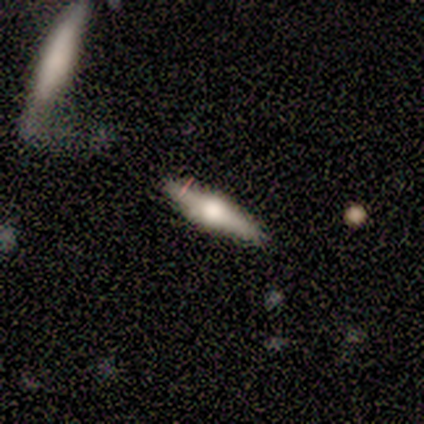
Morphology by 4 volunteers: smooth-or-featured: smooth: 50% (tied) | featured or disk: 50% (tied) | star or artifact: 0%
  how-rounded: cigar-shaped: 100% | round: 0% | in between: 0%
  merging: none: 100% | minor disturbance: 0% | major disturbance: 0% | merger: 0%